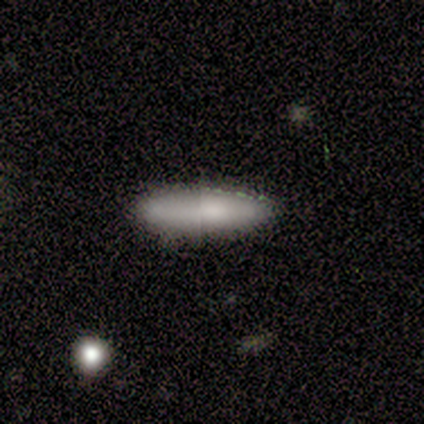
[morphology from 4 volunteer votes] type=smooth (100%); roundness=in between (50%, tied with cigar-shaped); merging=none (75%).